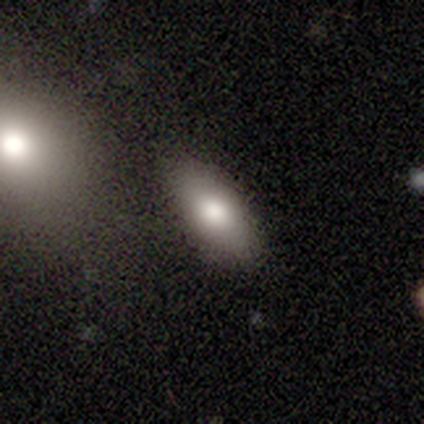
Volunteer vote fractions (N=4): Smooth or featured?
  - smooth: 100% *
  - featured or disk: 0%
  - star or artifact: 0%
How rounded?
  - in between: 50% * (tied)
  - cigar-shaped: 50% * (tied)
  - round: 0%
Merging?
  - none: 75% *
  - minor disturbance: 25%
  - major disturbance: 0%
  - merger: 0%